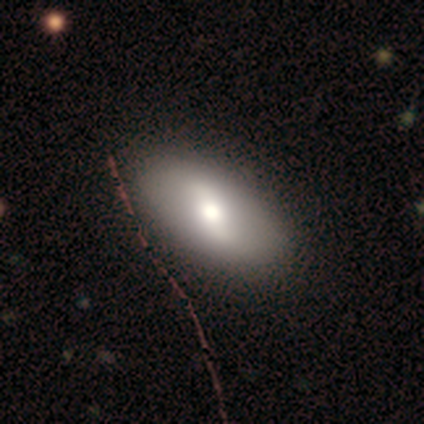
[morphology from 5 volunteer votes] Q: Smooth or featured?
A: smooth (40%); tied with: featured or disk (40%)
Q: How rounded?
A: in between (100%)
Q: Merging?
A: none (75%); runner-up: minor disturbance (25%)